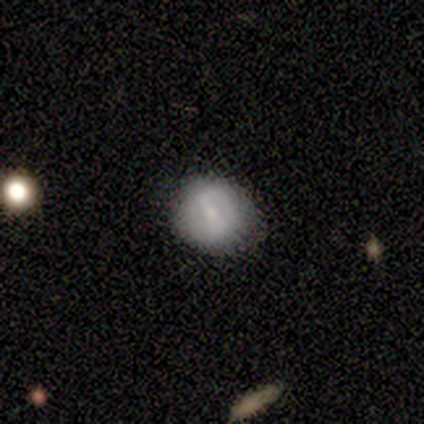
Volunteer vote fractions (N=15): smooth-or-featured: smooth: 73% | featured or disk: 27% | star or artifact: 0%
  how-rounded: round: 82% | in between: 18% | cigar-shaped: 0%
  merging: none: 73% | minor disturbance: 27% | major disturbance: 0% | merger: 0%